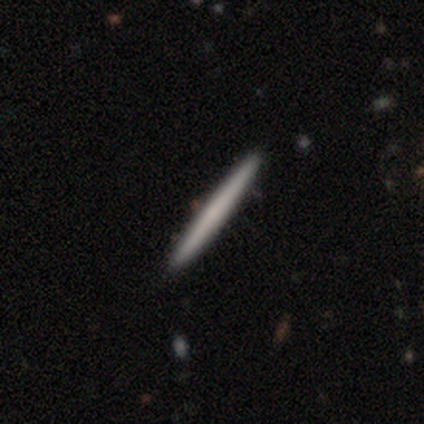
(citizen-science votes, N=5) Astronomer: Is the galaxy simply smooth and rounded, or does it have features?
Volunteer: smooth — 60%.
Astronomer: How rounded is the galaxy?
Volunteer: cigar-shaped — 100%.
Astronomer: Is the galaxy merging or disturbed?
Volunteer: none — 75%.